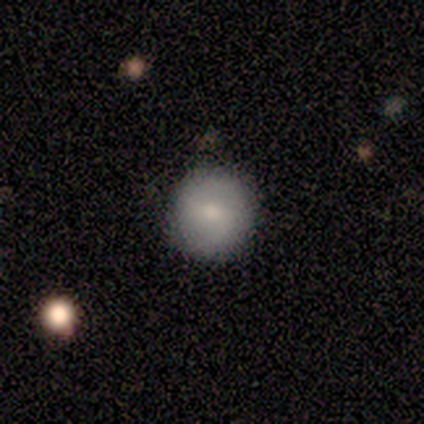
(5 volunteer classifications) smooth 100%, featured or disk 0%, star or artifact 0%. Down the decision tree: how rounded — round (100%); merging — none (100%).